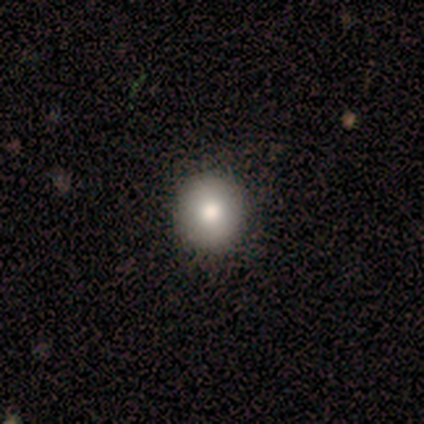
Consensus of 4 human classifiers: Morphology: type=smooth (100%); roundness=round (100%); merging=none (100%).